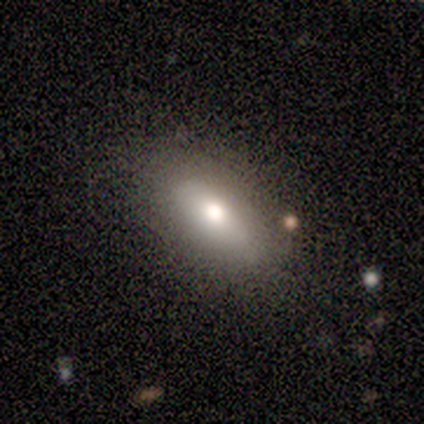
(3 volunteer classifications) Volunteers were most divided on "smooth or featured": smooth: 67%, featured or disk: 33%, star or artifact: 0%. More confident: how rounded — in between (100%); merging — none (100%).